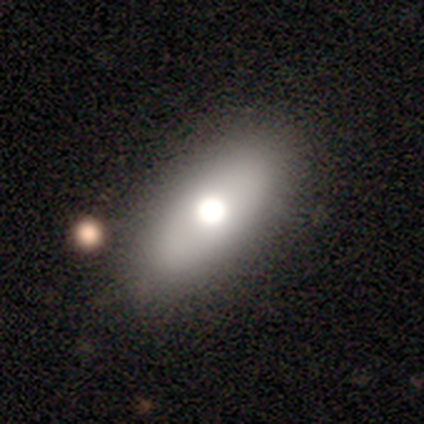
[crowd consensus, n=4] This appears to be a featured or disk galaxy (75%) viewed edge-on (67%) with a rounded central bulge (100%). Merging: none (100%).